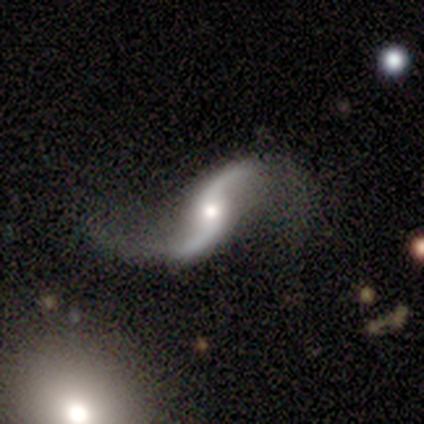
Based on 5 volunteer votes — Morphology: type=featured or disk (100%); edge-on=no (100%); bar=no (60%); spiral arms=yes (100%); winding=loose (100%); arm count=2 (100%); bulge=moderate (60%); merging=none (80%).